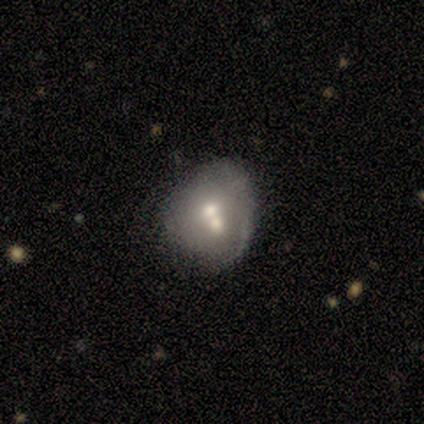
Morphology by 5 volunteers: Smooth or featured? 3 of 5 (60%) said smooth. How rounded? 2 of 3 (67%) said round. Merging? 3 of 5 (60%) said merger.